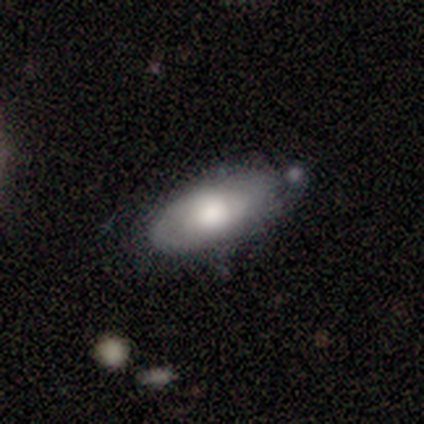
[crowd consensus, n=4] Smooth or featured?
  - smooth: 50% * (tied)
  - featured or disk: 50% * (tied)
  - star or artifact: 0%
How rounded?
  - in between: 100% *
  - round: 0%
  - cigar-shaped: 0%
Merging?
  - none: 50% * (tied)
  - merger: 50% * (tied)
  - minor disturbance: 0%
  - major disturbance: 0%